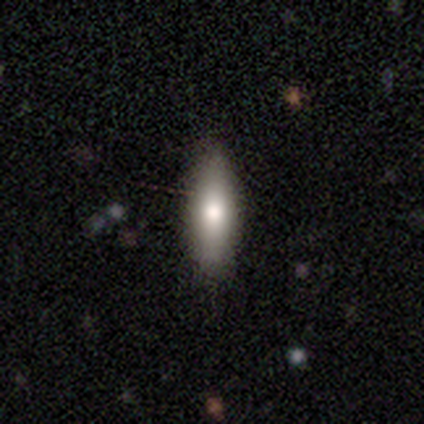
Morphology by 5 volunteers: smooth 100%, featured or disk 0%, star or artifact 0%. Down the decision tree: how rounded — cigar-shaped (60%); merging — none (100%).